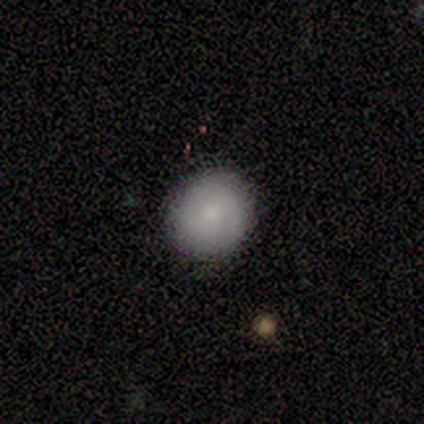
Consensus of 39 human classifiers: A smooth galaxy with no disk features (72%) that is round (100%).

Vote fractions:
- Smooth or featured? smooth: 72% / featured or disk: 15% / star or artifact: 13%
- How rounded? round: 100% / in between: 0% / cigar-shaped: 0%
- Merging? none: 94% / minor disturbance: 3% / major disturbance: 3% / merger: 0%